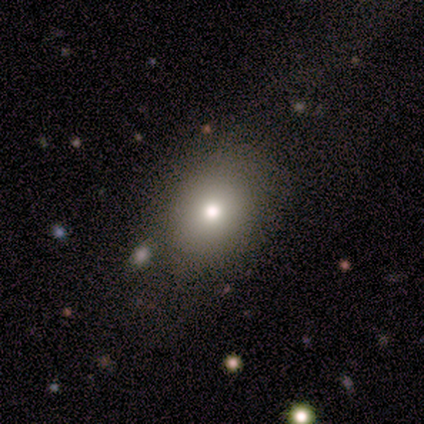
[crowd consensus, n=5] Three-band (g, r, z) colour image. It shows a smooth galaxy with no disk features (80%) that is round (50%, tied with in between). Merging: none (100%).